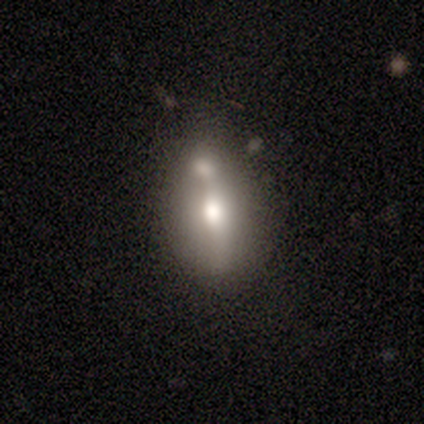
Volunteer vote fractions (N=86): Morphology: type=smooth (60%); roundness=in between (83%); merging=merger (45%).